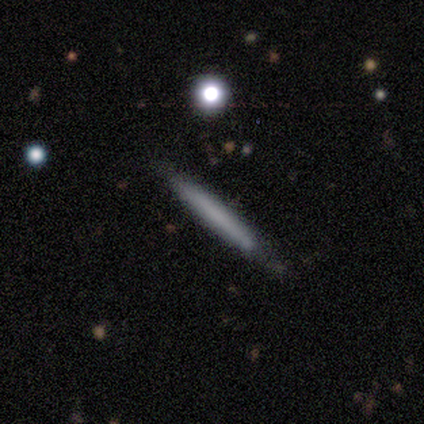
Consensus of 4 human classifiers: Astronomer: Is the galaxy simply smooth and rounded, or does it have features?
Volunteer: smooth — 100%.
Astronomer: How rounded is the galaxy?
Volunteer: cigar-shaped — 100%.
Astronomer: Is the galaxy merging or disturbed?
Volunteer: none — 75%.